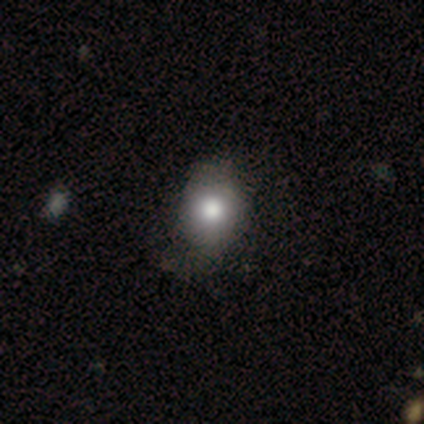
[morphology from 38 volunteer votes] smooth 68%, featured or disk 16%, star or artifact 16%. Down the decision tree: how rounded — round (50%, tied with in between); merging — none (62%).